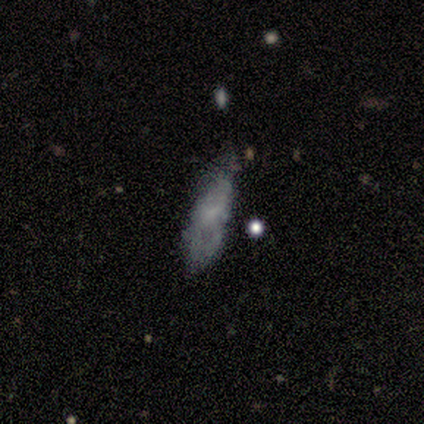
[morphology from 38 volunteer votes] type=smooth (47%); roundness=in between (56%); merging=none (49%).